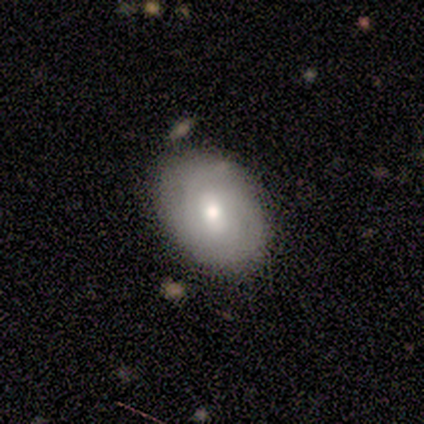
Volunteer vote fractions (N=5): Smooth or featured? featured or disk (60%)
Edge-on disk? no (100%)
Bar? no (67%)
Spiral arms? yes (100%)
Spiral winding? tight (67%)
Spiral arm count? can't tell (67%)
Bulge size? small (67%)
Merging? none (80%)